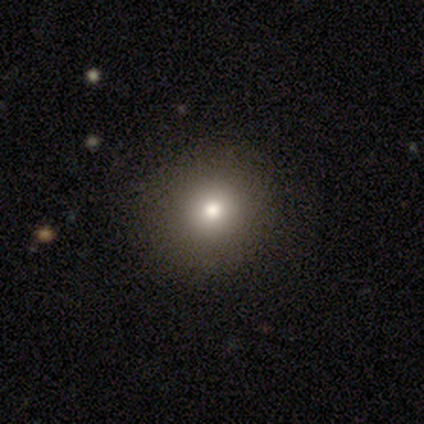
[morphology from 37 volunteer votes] Overall: smooth (59%; featured or disk 22%). How rounded: round (95%). Merging: none (87%).